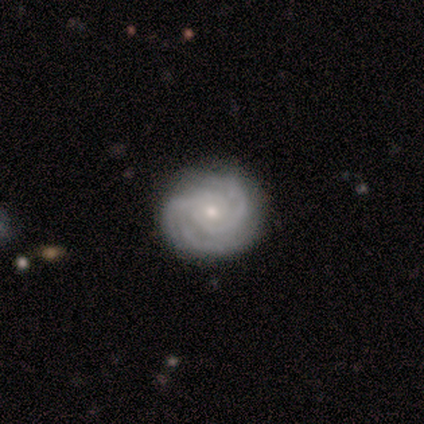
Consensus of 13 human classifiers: Smooth or featured: featured or disk — 69% (smooth — 15%)
Edge-on disk: no — 100%
Bar: no — 67% (weak — 22%)
Spiral arms: yes — 100%
Spiral winding: tight — 67% (loose — 33%)
Spiral arm count: 3 — 44% (can't tell — 33%)
Bulge size: small — 56% (moderate — 22%)
Merging: none — 91% (major disturbance — 9%)